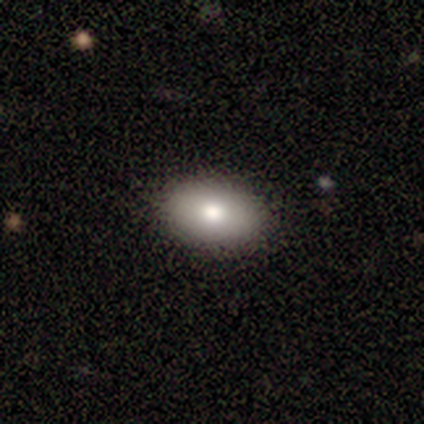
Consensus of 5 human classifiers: This appears to be a smooth galaxy with no disk features (80%) that is in between round and cigar-shaped (100%). Merging: none (75%).